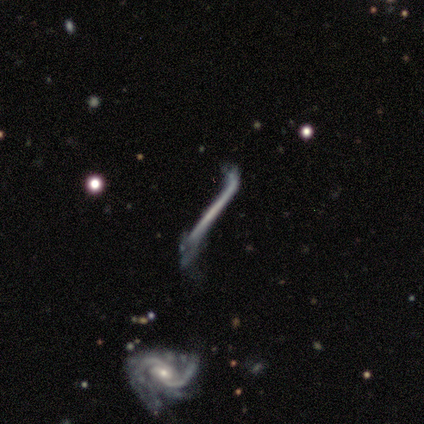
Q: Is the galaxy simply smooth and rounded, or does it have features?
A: featured or disk — 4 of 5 (80%).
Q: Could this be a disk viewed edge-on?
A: yes — 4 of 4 (100%).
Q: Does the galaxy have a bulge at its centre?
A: none — 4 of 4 (100%).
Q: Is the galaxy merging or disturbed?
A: major disturbance — 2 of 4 (50%).